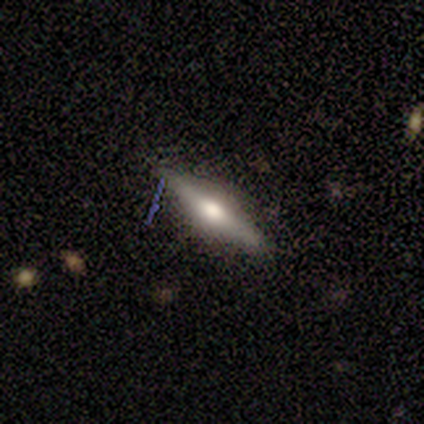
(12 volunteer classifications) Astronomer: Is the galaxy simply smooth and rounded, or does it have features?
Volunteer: featured or disk — 75%.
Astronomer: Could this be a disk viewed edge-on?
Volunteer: yes — 89%.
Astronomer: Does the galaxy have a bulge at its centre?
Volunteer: rounded — 100%.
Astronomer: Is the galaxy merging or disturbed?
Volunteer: none — 75%.